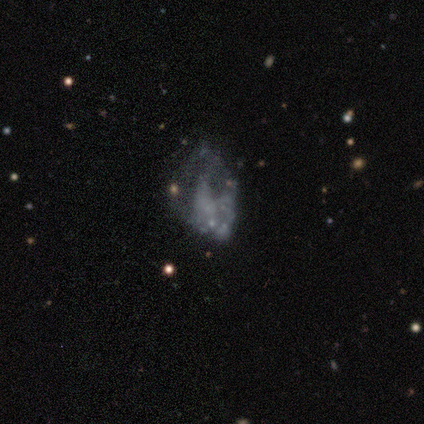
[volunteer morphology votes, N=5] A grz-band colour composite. It shows a featured or disk galaxy (60%) with no bar (100%), no spiral arms (100%) and no central bulge (100%). Merging: major disturbance (50%).